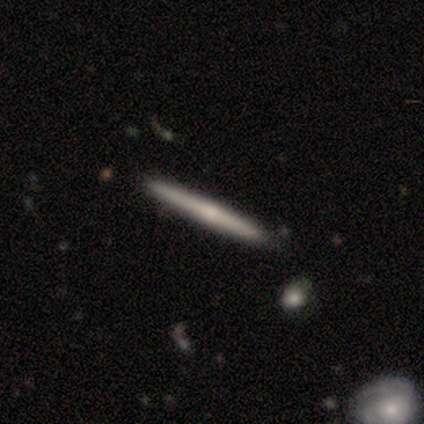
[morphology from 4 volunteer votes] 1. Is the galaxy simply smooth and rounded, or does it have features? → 75% featured or disk, 25% smooth, 0% star or artifact.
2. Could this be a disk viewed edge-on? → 100% yes, 0% no.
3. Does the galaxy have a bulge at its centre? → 67% none, 33% rounded, 0% boxy.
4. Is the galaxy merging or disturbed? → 100% none, 0% minor disturbance, 0% major disturbance, 0% merger.